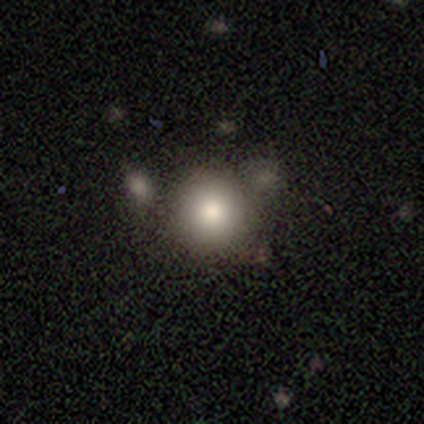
This appears to be a smooth galaxy with no disk features (76%) that is round (94%). Merging: none (71%).